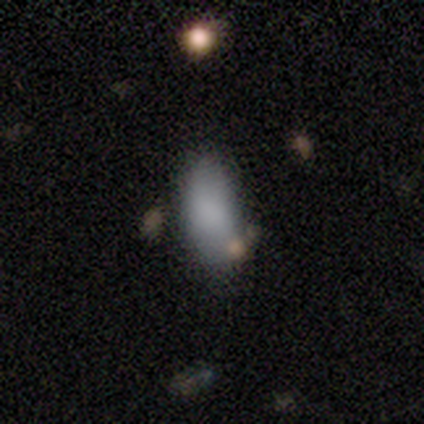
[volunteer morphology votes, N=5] smooth_or_featured: smooth (p=0.80) [alt: star or artifact p=0.20]
how_rounded: in between (p=0.75) [alt: cigar-shaped p=0.25]
merging: none (p=0.75) [alt: major disturbance p=0.25]